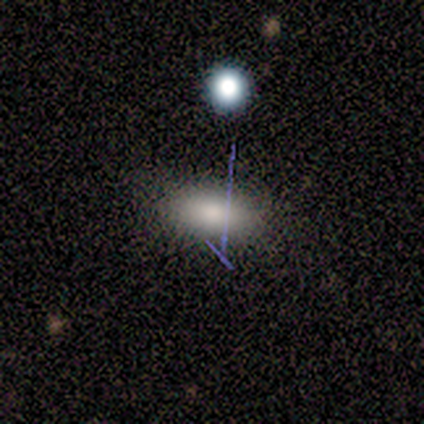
A smooth galaxy with no disk features (80%) that is in between round and cigar-shaped (100%). Merging: none (100%).